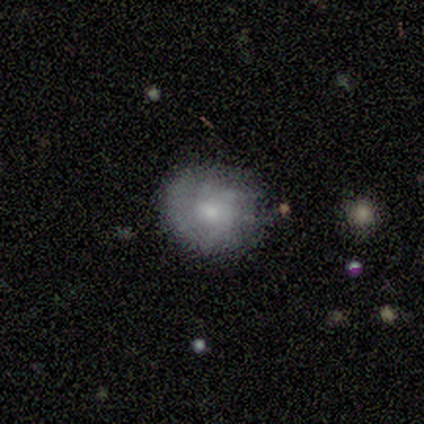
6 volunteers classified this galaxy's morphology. type=featured or disk (67%); edge-on=no (100%); bar=no (100%); spiral arms=yes (50%, tied with no); winding=tight (50%, tied with medium); arm count=1 (50%, tied with can't tell); bulge=moderate (50%); merging=none (100%).